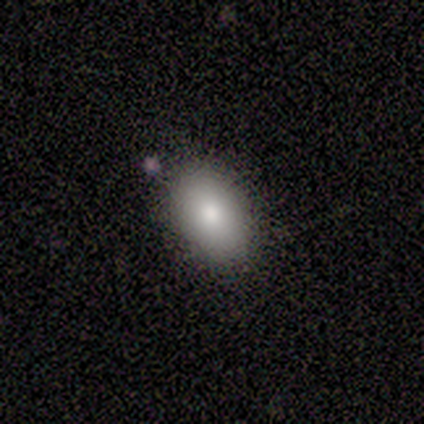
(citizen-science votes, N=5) Overall: smooth (80%). How rounded: in between (100%). Merging: none (100%).